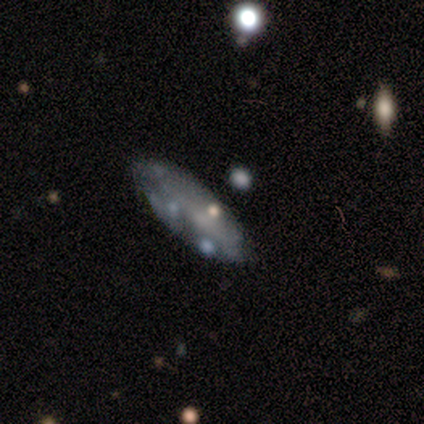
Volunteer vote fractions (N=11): Overall: featured or disk (64%). Edge-on disk: no (71%). Bar: no (100%). Spiral arms: no (60%; yes 40%). Bulge size: small (60%; none 40%). Merging: none (44%; minor disturbance 33%).